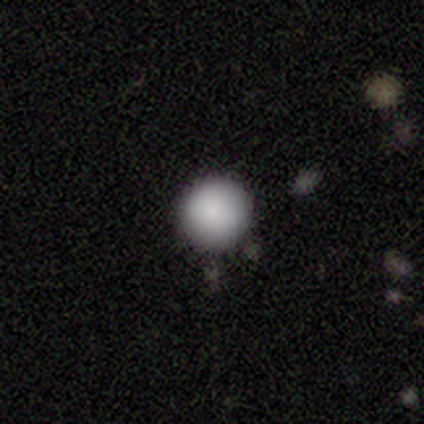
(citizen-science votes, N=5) Overall: smooth (80%). How rounded: round (100%). Merging: none (100%).